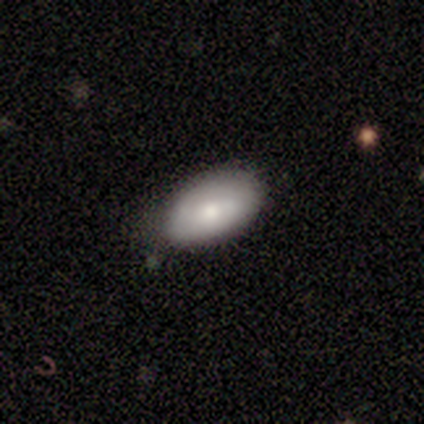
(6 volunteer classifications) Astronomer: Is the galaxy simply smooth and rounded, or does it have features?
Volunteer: smooth — 67%.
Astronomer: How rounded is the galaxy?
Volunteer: in between — 100%.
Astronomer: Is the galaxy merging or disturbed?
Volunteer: none — 100%.